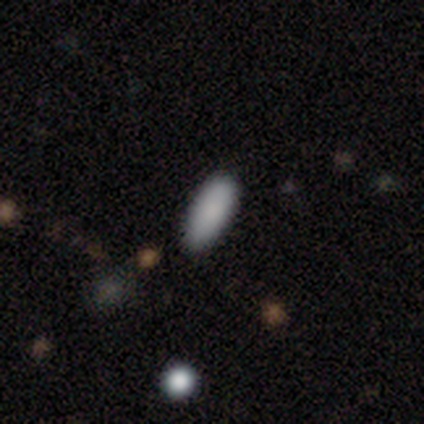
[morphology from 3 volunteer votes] This is clearly a smooth galaxy (100%). How rounded: likely in between (67%). Merging: clearly none (100%).